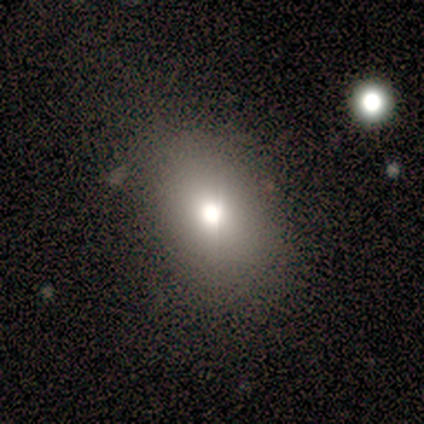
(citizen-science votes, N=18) This is likely a smooth galaxy (67%). How rounded: likely in between (67%). Merging: clearly none (94%).